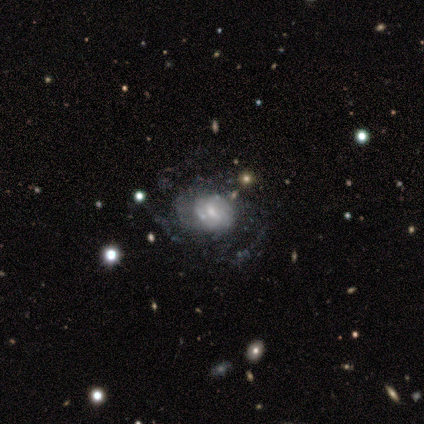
Q: Smooth or featured?
A: smooth (50%); tied with: featured or disk (50%)
Q: How rounded?
A: round (50%); tied with: in between (50%)
Q: Merging?
A: none (75%); runner-up: merger (25%)